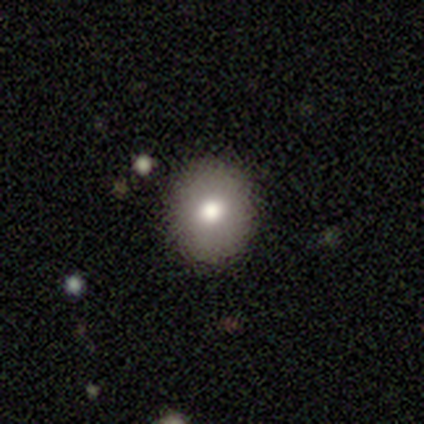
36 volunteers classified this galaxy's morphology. A smooth galaxy with no disk features (72%) that is round (77%). Merging: none (97%).